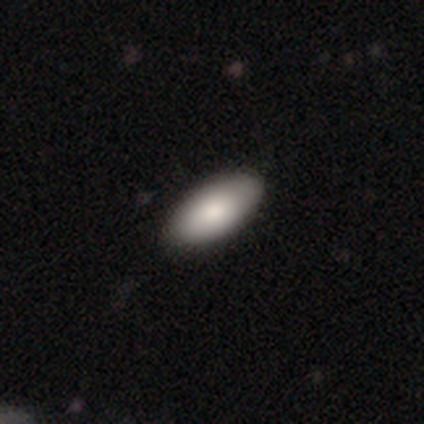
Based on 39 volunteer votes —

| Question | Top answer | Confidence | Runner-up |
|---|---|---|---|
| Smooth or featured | smooth | 77% | featured or disk (15%) |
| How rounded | in between | 97% | cigar-shaped (3%) |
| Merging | none | 56% | minor disturbance (6%) |